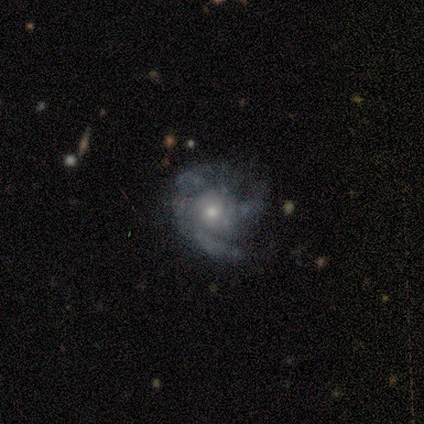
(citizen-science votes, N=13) smooth-or-featured: featured or disk: 85% | smooth: 8% | star or artifact: 8%
  disk-edge-on: no: 100% | yes: 0%
    bar: no: 91% | weak: 9% | strong: 0%
    has-spiral-arms: yes: 82% | no: 18%
      spiral-winding: medium: 44% | tight: 33% | loose: 22%
      spiral-arm-count: 3: 56% | can't tell: 44% | 1: 0% | 2: 0% | 4: 0% | more than 4: 0%
    bulge-size: moderate: 64% | small: 27% | large: 9% | dominant: 0% | none: 0%
  merging: none: 67% | minor disturbance: 17% | major disturbance: 17% | merger: 0%